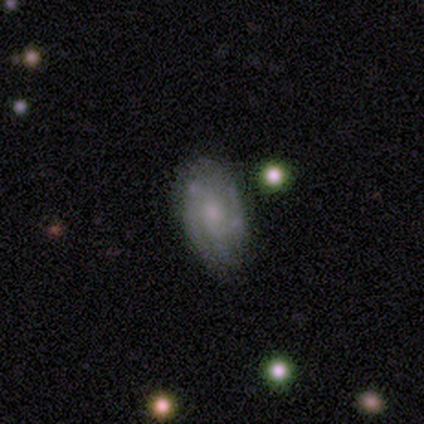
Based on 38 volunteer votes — Volunteers were most divided on "spiral arm count": 3: 41%, can't tell: 35%, 2: 12%, 4: 12%, 1: 0%, more than 4: 0%. More confident: edge-on disk — no (100%); spiral arms — yes (71%); merging — none (69%); smooth or featured — featured or disk (63%); bulge size — small (58%); bar — no (54%); spiral winding — tight (53%).